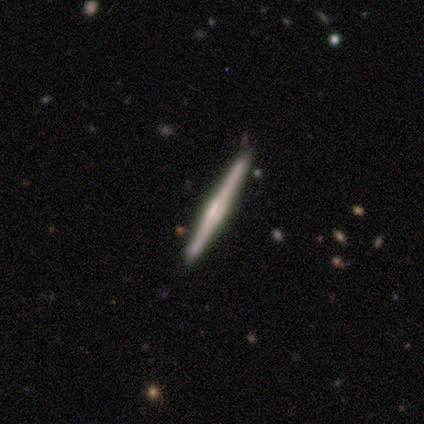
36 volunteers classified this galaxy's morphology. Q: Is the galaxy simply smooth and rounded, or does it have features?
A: featured or disk — 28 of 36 (78%).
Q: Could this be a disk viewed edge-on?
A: yes — 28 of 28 (100%).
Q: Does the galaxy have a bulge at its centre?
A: rounded — 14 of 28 (50%).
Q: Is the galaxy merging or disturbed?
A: none — 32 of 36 (89%).